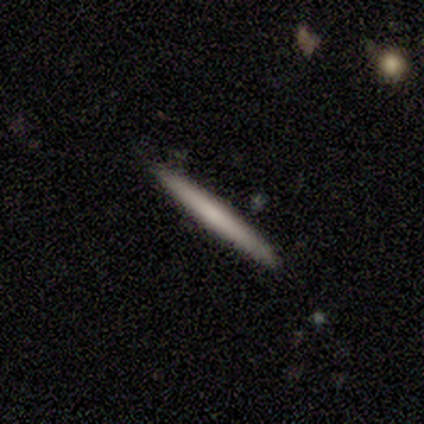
This is clearly a smooth galaxy (100%). How rounded: clearly cigar-shaped (100%). Merging: clearly none (100%).